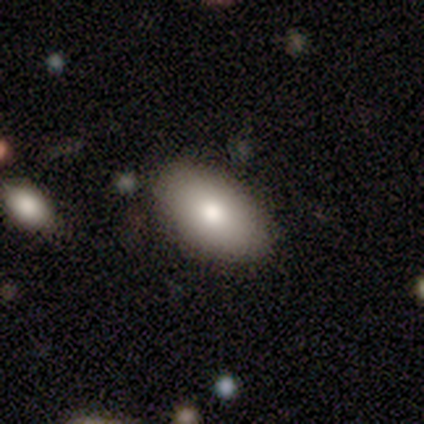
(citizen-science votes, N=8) smooth-or-featured: smooth: 100% | featured or disk: 0% | star or artifact: 0%
  how-rounded: in between: 88% | round: 12% | cigar-shaped: 0%
  merging: none: 100% | minor disturbance: 0% | major disturbance: 0% | merger: 0%